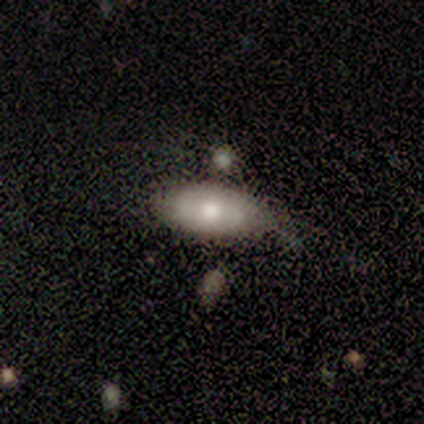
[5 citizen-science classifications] A featured or disk galaxy (60%) with no bar (100%), tight (67%) spiral arms (100%) and a moderate central bulge (100%). Merging: none (80%).